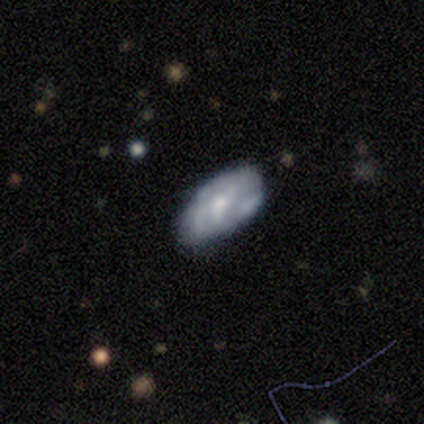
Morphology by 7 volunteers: Smooth or featured? 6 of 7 (86%) said featured or disk. Edge-on disk? 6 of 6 (100%) said no. Bar? 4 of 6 (67%) said no. Spiral arms? 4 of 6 (67%) said no. Bulge size? 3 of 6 (50%) said small. Merging? 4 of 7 (57%) said none.